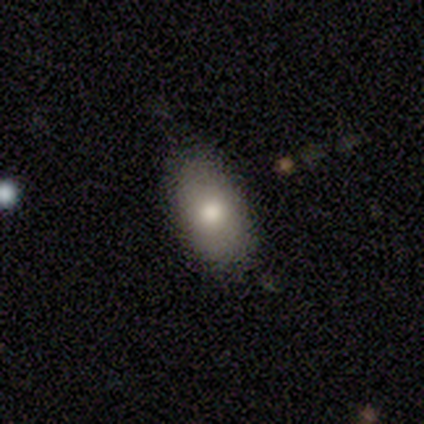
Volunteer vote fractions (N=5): Smooth or featured? smooth (100%)
How rounded? in between (100%)
Merging? none (60%)